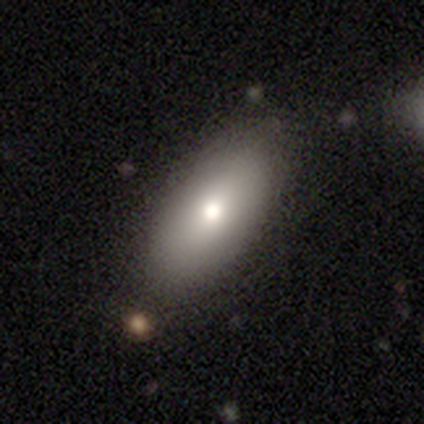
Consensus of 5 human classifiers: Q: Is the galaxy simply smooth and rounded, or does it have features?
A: smooth — 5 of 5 (100%).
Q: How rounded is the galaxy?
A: in between — 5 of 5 (100%).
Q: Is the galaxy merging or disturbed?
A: none — 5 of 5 (100%).